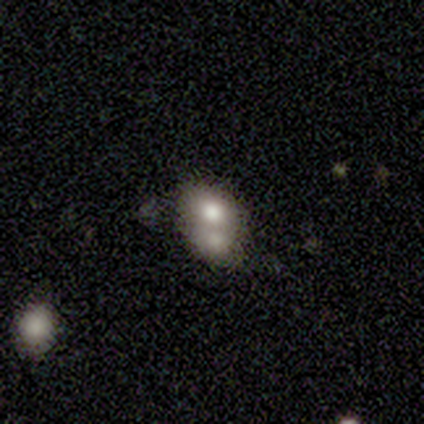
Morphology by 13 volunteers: type=smooth (54%); roundness=in between (100%); merging=merger (69%).